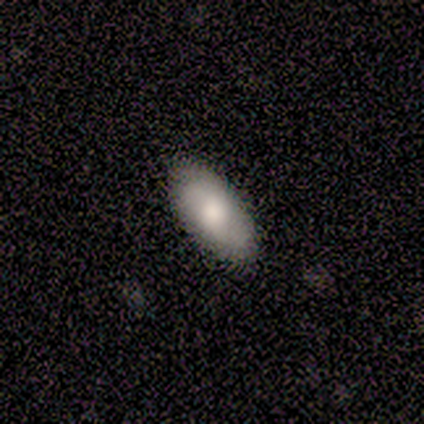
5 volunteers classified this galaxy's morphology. Smooth or featured?
  - smooth: 100% *
  - featured or disk: 0%
  - star or artifact: 0%
How rounded?
  - in between: 100% *
  - round: 0%
  - cigar-shaped: 0%
Merging?
  - none: 100% *
  - minor disturbance: 0%
  - major disturbance: 0%
  - merger: 0%